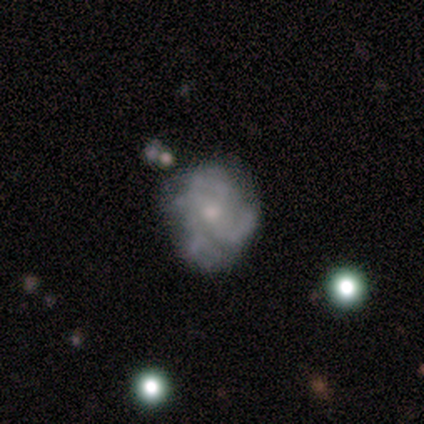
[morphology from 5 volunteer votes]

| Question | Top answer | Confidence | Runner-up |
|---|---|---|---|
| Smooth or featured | featured or disk | 60% | star or artifact (40%) |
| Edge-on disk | no | 100% | — |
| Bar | no | 67% | weak (33%) |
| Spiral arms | no | 67% | yes (33%) |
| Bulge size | small | 67% | large (33%) |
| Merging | minor disturbance | 67% | none (33%) |